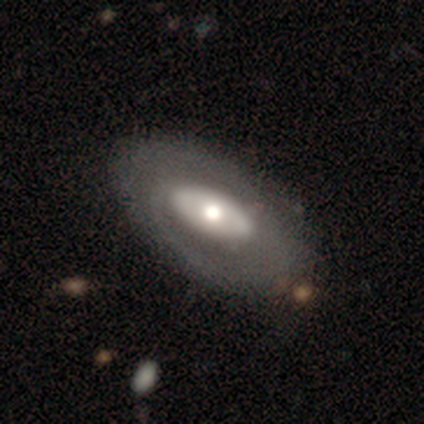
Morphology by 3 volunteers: Smooth or featured: featured or disk — 100%
Edge-on disk: no — 100%
Bar: no — 67% (strong — 33%)
Spiral arms: no — 67% (yes — 33%)
Bulge size: moderate — 100%
Merging: none — 100%